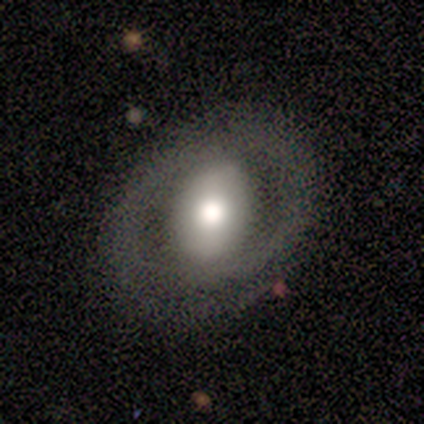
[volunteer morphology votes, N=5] smooth_or_featured: smooth (p=0.60) [alt: featured or disk p=0.20]
how_rounded: in between (p=1.00)
merging: none (p=0.50) [tied with: minor disturbance p=0.50]